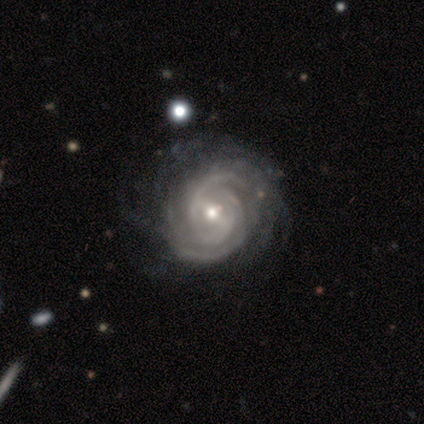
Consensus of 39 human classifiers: Smooth or featured?
  - featured or disk: 100% *
  - smooth: 0%
  - star or artifact: 0%
Edge-on disk?
  - no: 97% *
  - yes: 3%
Bar?
  - weak: 42% *
  - strong: 29%
  - no: 29%
Spiral arms?
  - yes: 100% *
  - no: 0%
Spiral winding?
  - tight: 82% *
  - medium: 13%
  - loose: 5%
Spiral arm count?
  - 3: 34% *
  - can't tell: 32%
  - 2: 16%
  - 4: 11%
  - more than 4: 8%
  - 1: 0%
Bulge size?
  - moderate: 55% *
  - small: 42%
  - large: 3%
  - dominant: 0%
  - none: 0%
Merging?
  - none: 56% *
  - minor disturbance: 5%
  - merger: 5%
  - major disturbance: 3%